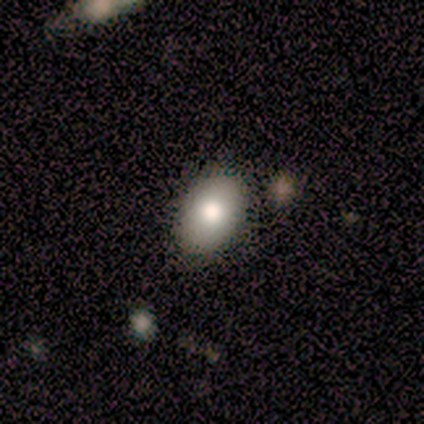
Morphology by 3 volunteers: This is likely a smooth galaxy (67%). How rounded: clearly in between (100%). Merging: clearly none (100%).